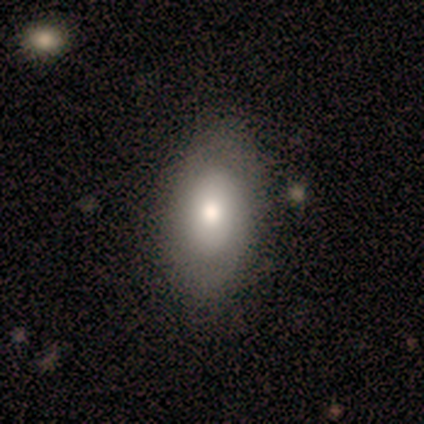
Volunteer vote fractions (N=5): smooth_or_featured: smooth (p=0.60) [alt: featured or disk p=0.40]
how_rounded: in between (p=1.00)
merging: minor disturbance (p=0.80) [alt: none p=0.20]